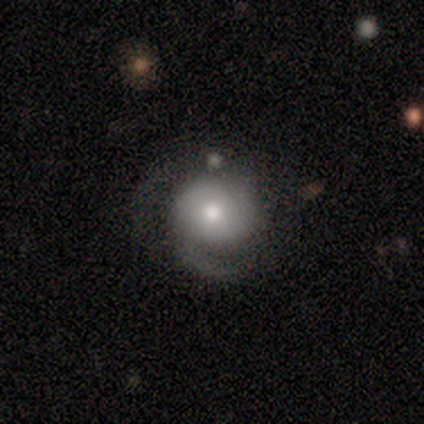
This is marginally a smooth galaxy (40%, tied with featured or disk). How rounded: clearly round (100%). Merging: possibly none (50%).